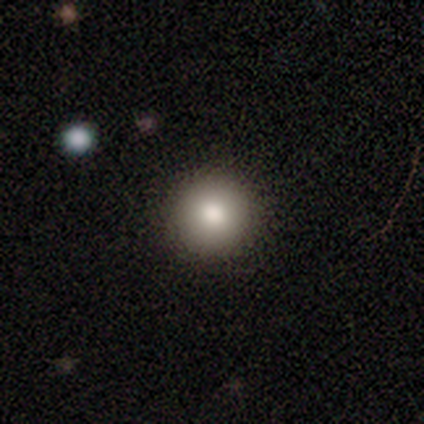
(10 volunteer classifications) This appears to be a smooth galaxy with no disk features (80%) that is round (88%). Merging: none (100%).